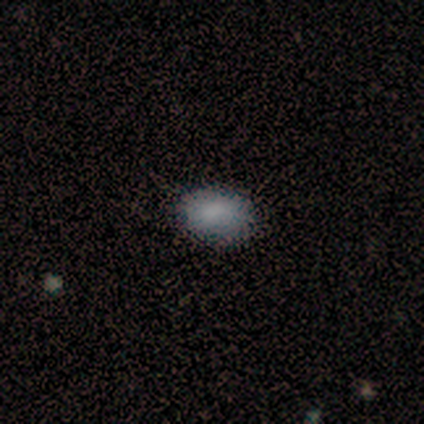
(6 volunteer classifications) Smooth or featured: smooth — 100%
How rounded: in between — 100%
Merging: none — 50% (tied with minor disturbance — 50%)